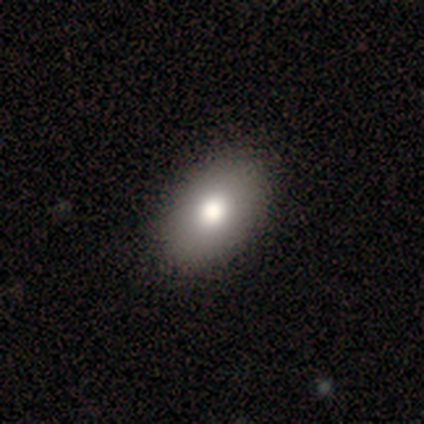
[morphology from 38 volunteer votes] A smooth galaxy with no disk features (74%) that is in between round and cigar-shaped (89%).

Vote fractions:
- Smooth or featured? smooth: 74% / featured or disk: 16% / star or artifact: 11%
- How rounded? in between: 89% / round: 11% / cigar-shaped: 0%
- Merging? none: 97% / merger: 3% / minor disturbance: 0% / major disturbance: 0%